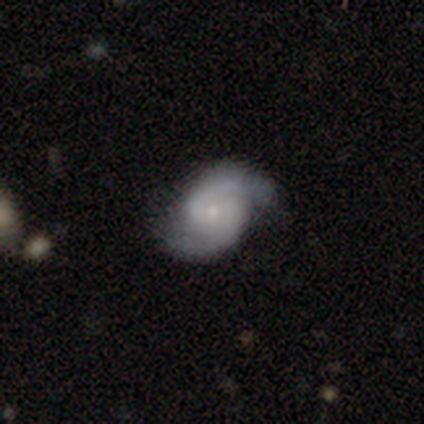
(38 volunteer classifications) Morphology: type=featured or disk (84%); edge-on=no (100%); bar=no (66%); spiral arms=yes (97%); winding=medium (58%); arm count=2 (97%); bulge=small (81%); merging=none (82%).